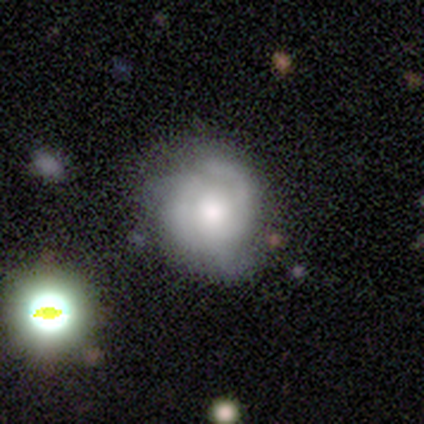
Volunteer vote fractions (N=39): Q: Smooth or featured?
A: featured or disk (54%); runner-up: smooth (38%)
Q: Edge-on disk?
A: no (95%); runner-up: yes (5%)
Q: Bar?
A: no (80%); runner-up: weak (20%)
Q: Spiral arms?
A: yes (75%); runner-up: no (25%)
Q: Spiral winding?
A: tight (60%); runner-up: medium (27%)
Q: Spiral arm count?
A: 3 (40%); runner-up: can't tell (27%)
Q: Bulge size?
A: moderate (45%); runner-up: large (25%)
Q: Merging?
A: none (53%); runner-up: minor disturbance (28%)